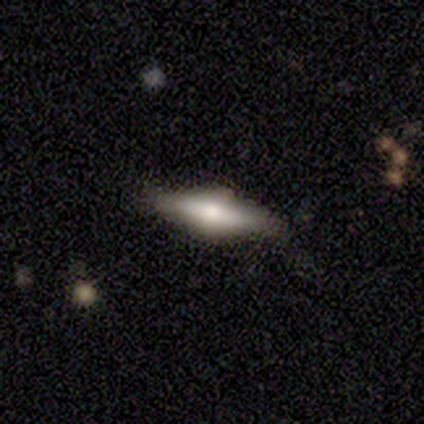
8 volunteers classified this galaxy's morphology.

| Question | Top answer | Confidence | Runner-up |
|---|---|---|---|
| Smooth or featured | featured or disk | 50% | smooth (38%) |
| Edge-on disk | yes | 100% | — |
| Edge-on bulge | rounded | 75% | none (25%) |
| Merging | none | 71% | minor disturbance (29%) |